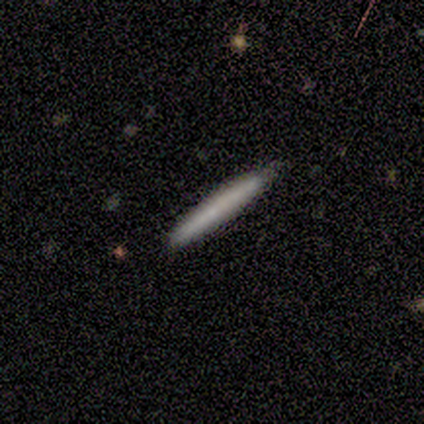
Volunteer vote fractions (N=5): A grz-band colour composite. It shows a smooth galaxy with no disk features (80%) that is cigar-shaped (100%). Merging: none (100%).